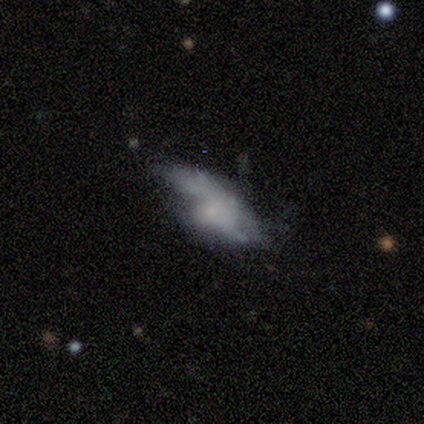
This appears to be a smooth galaxy with no disk features (75%) that is in between round and cigar-shaped (100%). Merging: minor disturbance (75%).